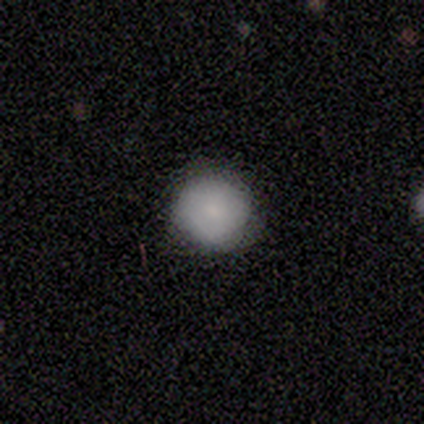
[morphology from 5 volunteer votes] Q: Smooth or featured?
A: smooth (100%)
Q: How rounded?
A: round (100%)
Q: Merging?
A: none (100%)